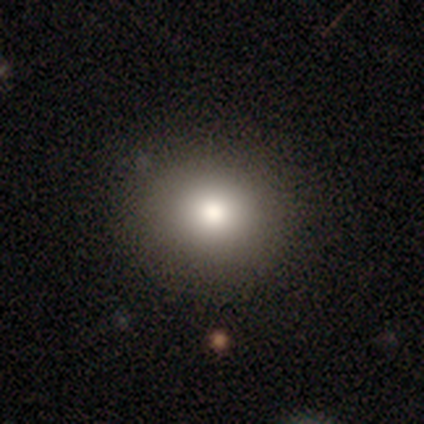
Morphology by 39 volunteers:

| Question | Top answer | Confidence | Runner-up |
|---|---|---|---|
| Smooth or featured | smooth | 64% | star or artifact (21%) |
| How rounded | round | 76% | in between (20%) |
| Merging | none | 77% | minor disturbance (16%) |